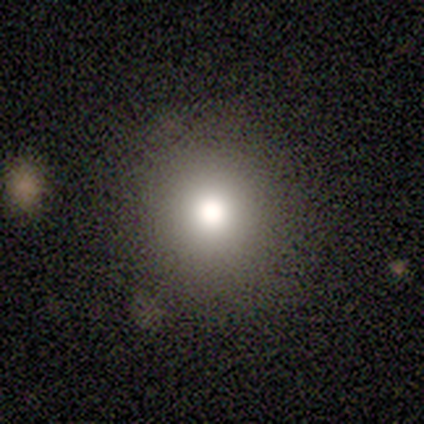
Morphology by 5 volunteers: Consensus on every question: smooth or featured — smooth (100%); how rounded — round (100%); merging — none (100%).